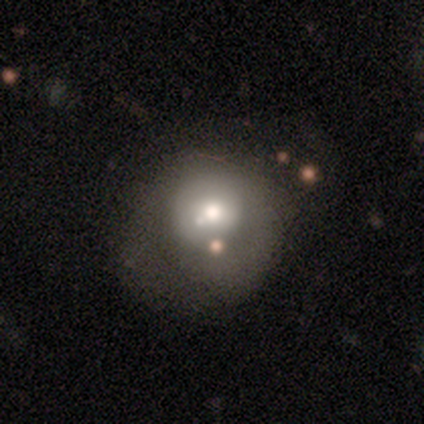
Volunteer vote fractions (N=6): Smooth or featured?
  - smooth: 50% * (tied)
  - featured or disk: 50% * (tied)
  - star or artifact: 0%
How rounded?
  - round: 100% *
  - in between: 0%
  - cigar-shaped: 0%
Merging?
  - major disturbance: 67% *
  - none: 33%
  - minor disturbance: 0%
  - merger: 0%